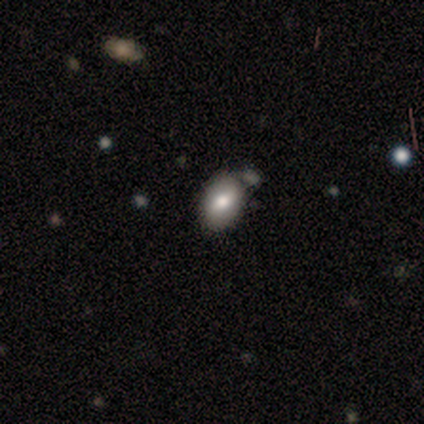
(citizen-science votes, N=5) Smooth or featured?
  - smooth: 80% *
  - star or artifact: 20%
  - featured or disk: 0%
How rounded?
  - in between: 100% *
  - round: 0%
  - cigar-shaped: 0%
Merging?
  - none: 50% * (tied)
  - minor disturbance: 50% * (tied)
  - major disturbance: 0%
  - merger: 0%